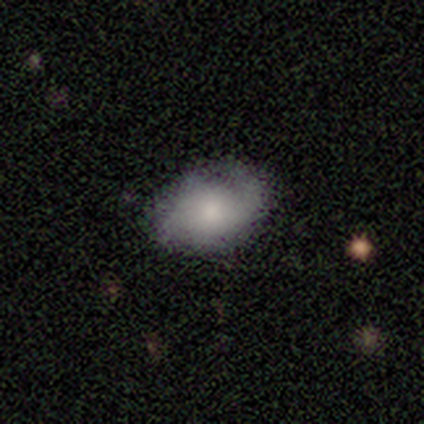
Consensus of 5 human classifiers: smooth_or_featured: smooth (p=0.60) [alt: featured or disk p=0.20]
how_rounded: in between (p=1.00)
merging: none (p=0.50) [tied with: minor disturbance p=0.50]